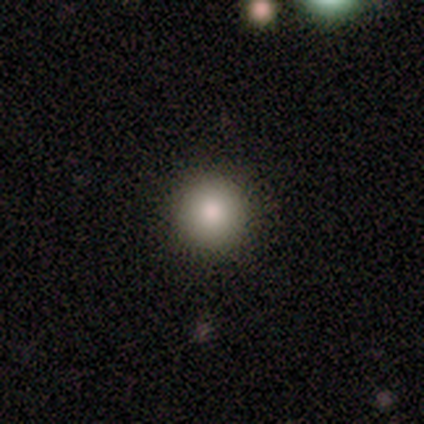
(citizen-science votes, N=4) This appears to be a smooth galaxy with no disk features (75%) that is round (100%). Merging: none (100%).